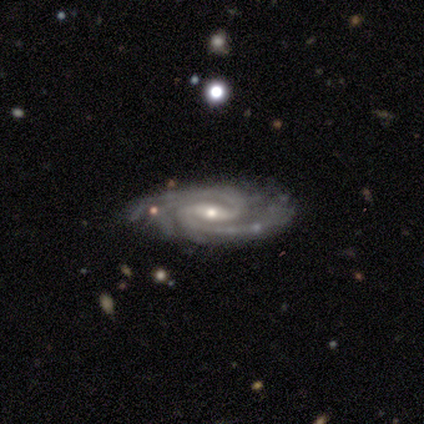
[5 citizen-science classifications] smooth_or_featured: featured or disk (p=1.00)
disk_edge_on: no (p=1.00)
bar: weak (p=0.60) [alt: strong p=0.40]
has_spiral_arms: yes (p=1.00)
spiral_winding: medium (p=0.60) [alt: tight p=0.40]
spiral_arm_count: 2 (p=0.80) [alt: can't tell p=0.20]
bulge_size: moderate (p=0.60) [alt: small p=0.40]
merging: none (p=0.80) [alt: merger p=0.20]